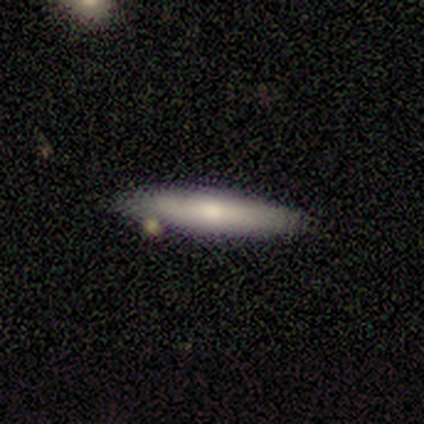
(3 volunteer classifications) Q: Smooth or featured?
A: smooth (100%)
Q: How rounded?
A: in between (67%); runner-up: cigar-shaped (33%)
Q: Merging?
A: none (67%); runner-up: minor disturbance (33%)